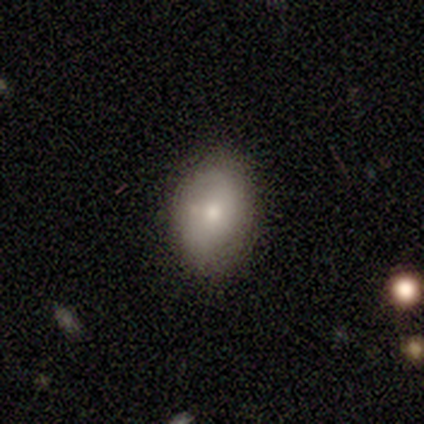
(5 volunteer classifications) smooth-or-featured: smooth: 60% | featured or disk: 20% | star or artifact: 20%
  how-rounded: in between: 100% | round: 0% | cigar-shaped: 0%
  merging: none: 75% | major disturbance: 25% | minor disturbance: 0% | merger: 0%